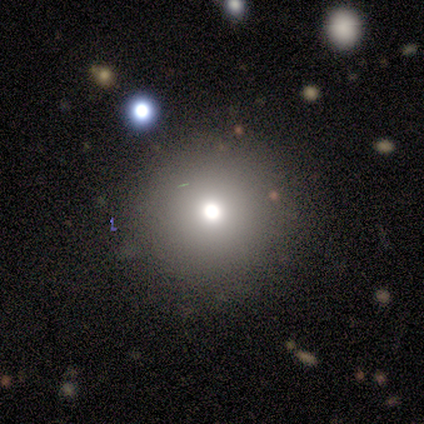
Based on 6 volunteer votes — smooth_or_featured: featured or disk (p=0.50) [alt: smooth p=0.33]
disk_edge_on: no (p=1.00)
bar: no (p=1.00)
has_spiral_arms: no (p=1.00)
bulge_size: small (p=0.67) [alt: moderate p=0.33]
merging: none (p=1.00)